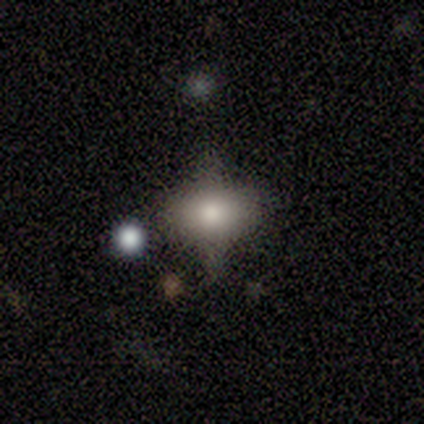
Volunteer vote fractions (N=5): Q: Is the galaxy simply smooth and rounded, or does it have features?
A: featured or disk — 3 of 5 (60%).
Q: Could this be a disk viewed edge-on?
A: no — 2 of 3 (67%).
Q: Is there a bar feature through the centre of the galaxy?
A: no — 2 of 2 (100%).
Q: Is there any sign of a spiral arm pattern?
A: no — 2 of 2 (100%).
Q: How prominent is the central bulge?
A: large — 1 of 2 (50%, tied with moderate).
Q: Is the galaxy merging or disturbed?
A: none — 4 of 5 (80%).